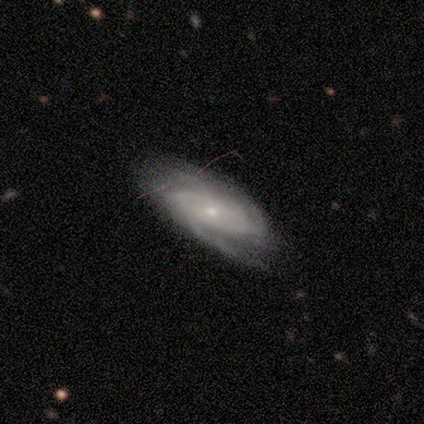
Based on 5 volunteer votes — Smooth or featured? 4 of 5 (80%) said featured or disk. Edge-on disk? 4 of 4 (100%) said no. Bar? 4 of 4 (100%) said no. Spiral arms? 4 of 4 (100%) said yes. Spiral winding? 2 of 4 (50%, tied with medium) said tight. Spiral arm count? 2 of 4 (50%) said 2. Bulge size? 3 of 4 (75%) said small. Merging? 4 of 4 (100%) said none.